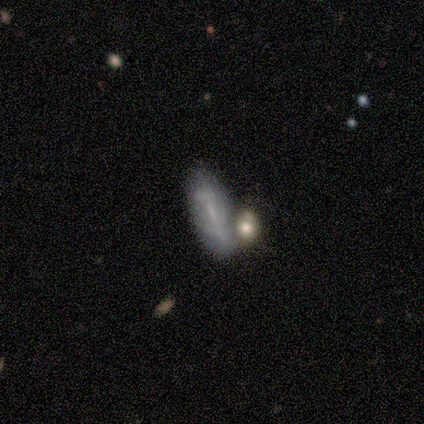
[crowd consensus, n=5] smooth 40% (tied), featured or disk 40% (tied), star or artifact 20%. Down the decision tree: how rounded — round (50%, tied with in between); merging — none (75%).